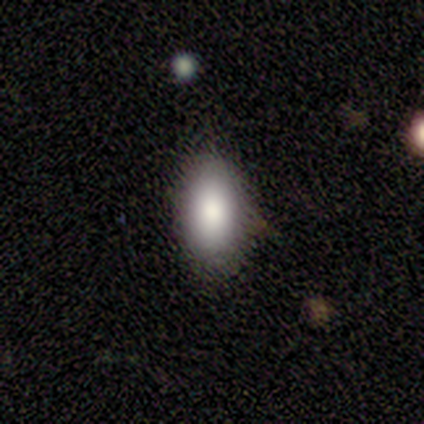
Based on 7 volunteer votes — Q: Smooth or featured?
A: smooth (71%); runner-up: featured or disk (29%)
Q: How rounded?
A: in between (80%); runner-up: round (20%)
Q: Merging?
A: none (100%)